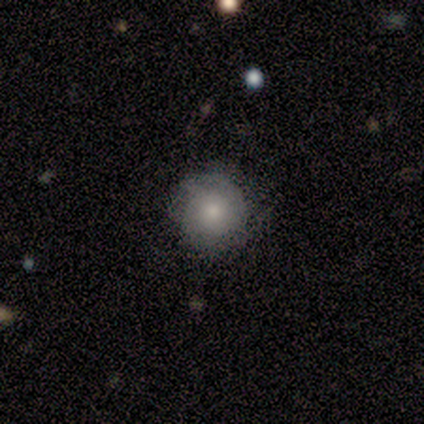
This is clearly a smooth galaxy (80%). How rounded: clearly round (100%). Merging: clearly none (80%).